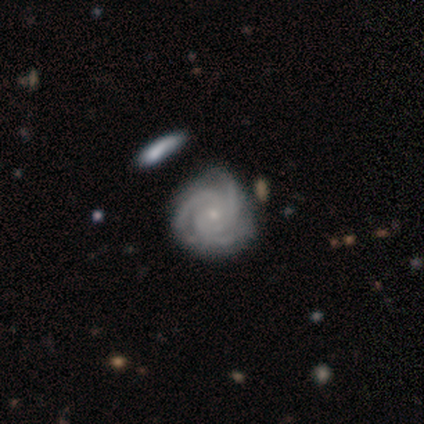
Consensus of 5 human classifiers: Smooth or featured? 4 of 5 (80%) said featured or disk. Edge-on disk? 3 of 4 (75%) said no. Bar? 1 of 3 (33%, tied with weak and no) said strong. Spiral arms? 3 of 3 (100%) said yes. Spiral winding? 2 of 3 (67%) said tight. Spiral arm count? 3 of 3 (100%) said 3. Bulge size? 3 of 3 (100%) said small. Merging? 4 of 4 (100%) said none.